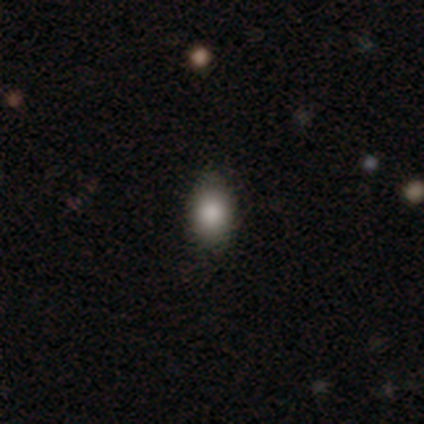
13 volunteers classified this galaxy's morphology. Smooth or featured?
  - smooth: 100% *
  - featured or disk: 0%
  - star or artifact: 0%
How rounded?
  - in between: 69% *
  - round: 31%
  - cigar-shaped: 0%
Merging?
  - none: 100% *
  - minor disturbance: 0%
  - major disturbance: 0%
  - merger: 0%